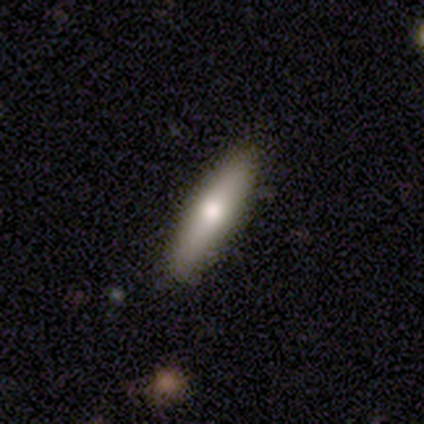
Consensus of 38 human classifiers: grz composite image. It shows a smooth galaxy with no disk features (68%) that is cigar-shaped (65%). Merging: none (86%).